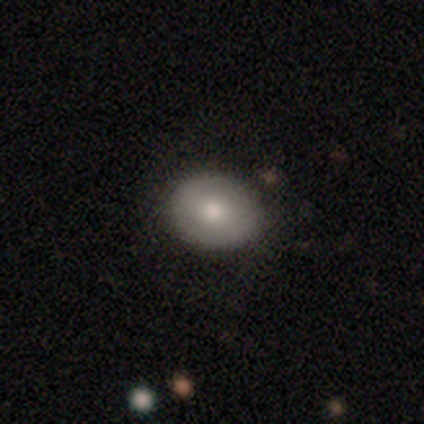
Smooth or featured? smooth (74%)
How rounded? in between (51%)
Merging? none (84%)